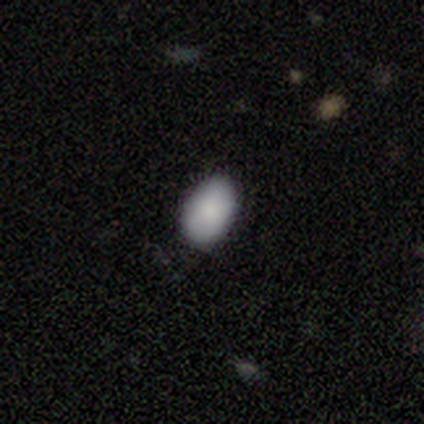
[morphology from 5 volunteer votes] Overall: smooth (100%). How rounded: in between (100%). Merging: none (100%).